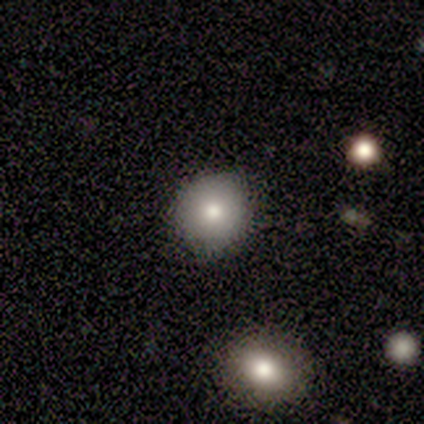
smooth 80%, featured or disk 20%, star or artifact 0%. Down the decision tree: how rounded — round (100%); merging — none (100%).